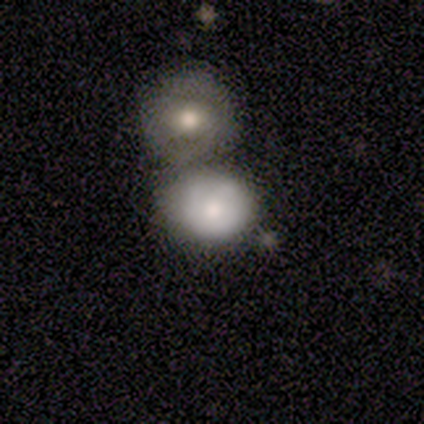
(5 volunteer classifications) A smooth galaxy with no disk features (80%) that is round (100%).

Vote fractions:
- Smooth or featured? smooth: 80% / featured or disk: 20% / star or artifact: 0%
- How rounded? round: 100% / in between: 0% / cigar-shaped: 0%
- Merging? merger: 60% / none: 40% / minor disturbance: 0% / major disturbance: 0%